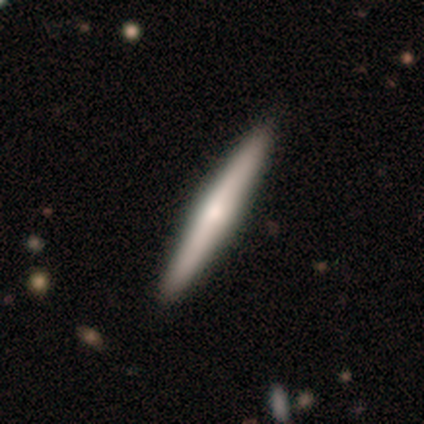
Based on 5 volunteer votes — Smooth or featured? 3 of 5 (60%) said featured or disk. Edge-on disk? 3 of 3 (100%) said yes. Edge-on bulge? 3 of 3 (100%) said rounded. Merging? 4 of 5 (80%) said none.